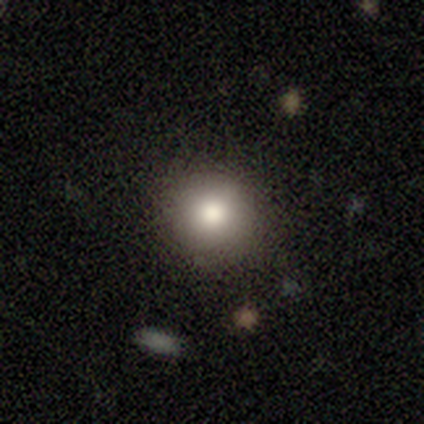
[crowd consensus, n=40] Volunteers were most divided on "smooth or featured": smooth: 80%, featured or disk: 12%, star or artifact: 8%. More confident: how rounded — round (91%); merging — none (86%).